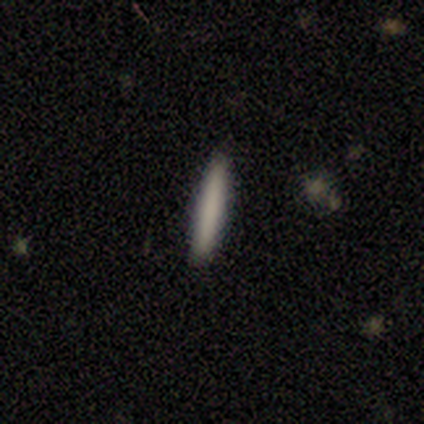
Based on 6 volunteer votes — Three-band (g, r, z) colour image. It shows a smooth galaxy with no disk features (100%) that is cigar-shaped (100%). Merging: none (83%).